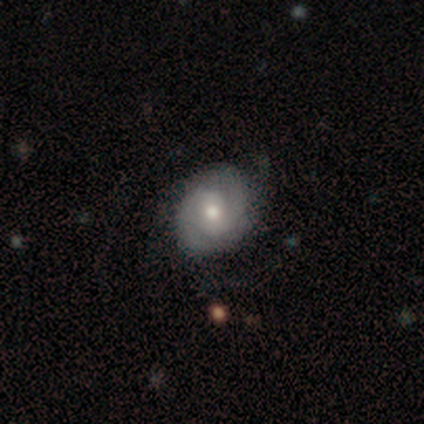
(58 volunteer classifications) A featured or disk galaxy (78%) with no bar (43%), 2 (86%) tight (64%) spiral arms (82%) and a moderate central bulge (75%).

Vote fractions:
- Smooth or featured? featured or disk: 78% / smooth: 16% / star or artifact: 7%
- Edge-on disk? no: 98% / yes: 2%
- Bar? no: 43% / weak: 39% / strong: 18%
- Spiral arms? yes: 82% / no: 18%
- Spiral winding? tight: 64% / medium: 31% / loose: 6%
- Spiral arm count? 2: 86% / can't tell: 11% / 3: 3% / 1: 0% / 4: 0% / more than 4: 0%
- Bulge size? moderate: 75% / small: 14% / none: 7% / large: 5% / dominant: 0%
- Merging? none: 76% / minor disturbance: 19% / major disturbance: 6% / merger: 0%